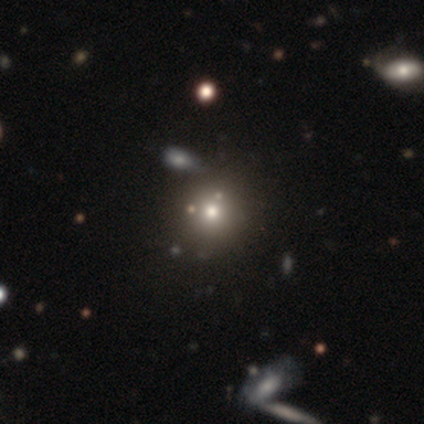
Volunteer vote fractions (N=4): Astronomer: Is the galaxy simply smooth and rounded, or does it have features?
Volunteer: smooth — 75%.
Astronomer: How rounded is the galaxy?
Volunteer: round — 67%.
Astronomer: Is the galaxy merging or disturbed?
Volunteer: none — 67%.